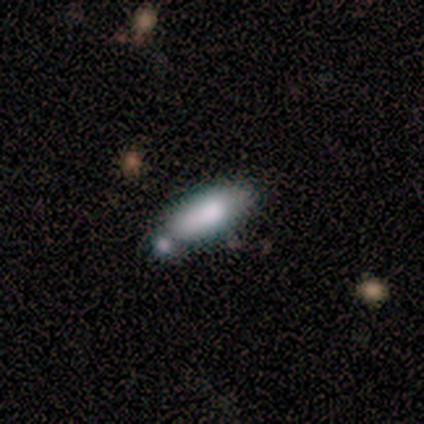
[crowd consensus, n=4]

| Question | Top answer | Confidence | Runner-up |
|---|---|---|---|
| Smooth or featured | smooth | 75% | featured or disk (25%) |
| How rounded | in between | 67% | cigar-shaped (33%) |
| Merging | none | 25% | tied: minor disturbance (25%), major disturbance (25%), merger (25%) |